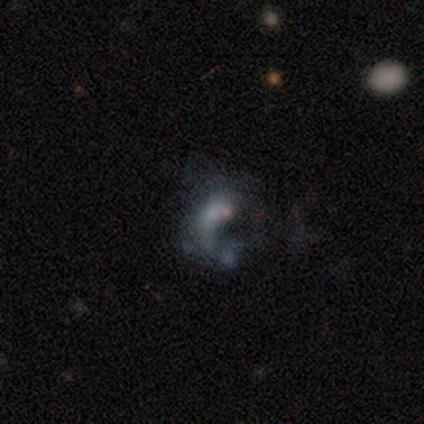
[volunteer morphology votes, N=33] featured or disk 76%, star or artifact 15%, smooth 9%. Down the decision tree: edge-on disk — no (96%); bar — no (96%); spiral arms — no (58%); bulge size — none (58%); merging — none (43%, tied with major disturbance).